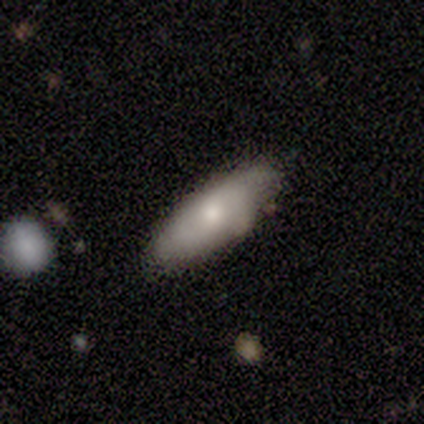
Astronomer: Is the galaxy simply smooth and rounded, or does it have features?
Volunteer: smooth — 64%.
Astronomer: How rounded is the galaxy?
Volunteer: in between — 71%.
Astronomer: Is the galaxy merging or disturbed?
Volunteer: none — 70%.